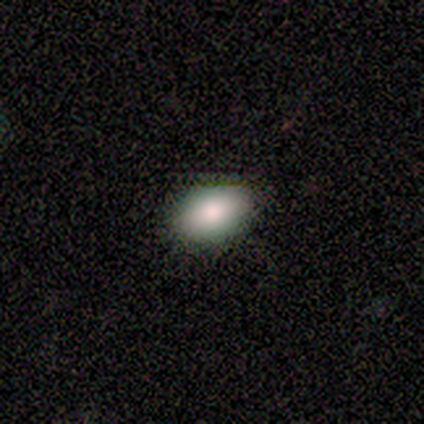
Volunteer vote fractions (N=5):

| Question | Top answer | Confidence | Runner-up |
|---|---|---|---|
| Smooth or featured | smooth | 80% | featured or disk (20%) |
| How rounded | in between | 100% | — |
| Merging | none | 80% | minor disturbance (20%) |